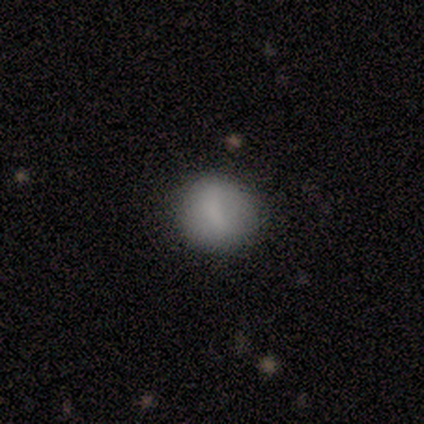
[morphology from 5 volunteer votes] A smooth galaxy with no disk features (100%) that is round (100%).

Vote fractions:
- Smooth or featured? smooth: 100% / featured or disk: 0% / star or artifact: 0%
- How rounded? round: 100% / in between: 0% / cigar-shaped: 0%
- Merging? none: 100% / minor disturbance: 0% / major disturbance: 0% / merger: 0%